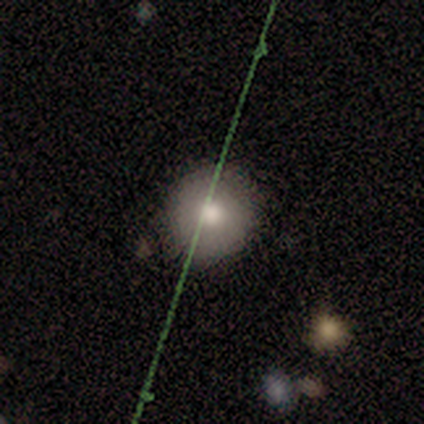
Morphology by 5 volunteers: Smooth or featured? 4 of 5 (80%) said smooth. How rounded? 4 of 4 (100%) said round. Merging? 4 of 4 (100%) said none.